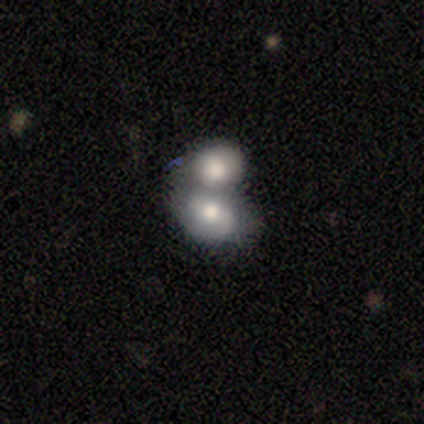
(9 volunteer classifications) This is likely a smooth galaxy (78%). How rounded: likely in between (71%). Merging: clearly merger (88%).